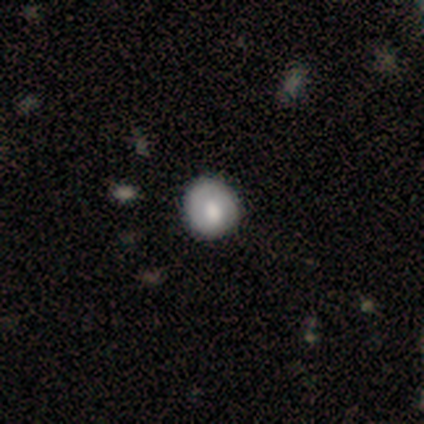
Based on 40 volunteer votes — Q: Smooth or featured?
A: smooth (60%); runner-up: featured or disk (25%)
Q: How rounded?
A: round (71%); runner-up: in between (25%)
Q: Merging?
A: none (85%); runner-up: minor disturbance (15%)